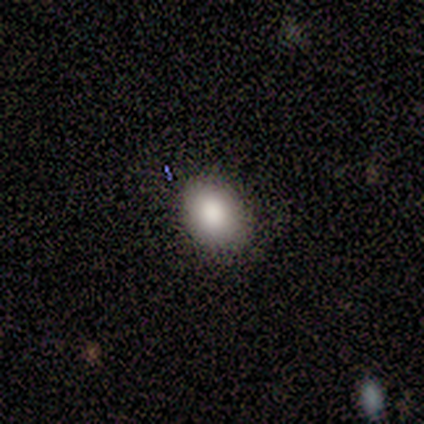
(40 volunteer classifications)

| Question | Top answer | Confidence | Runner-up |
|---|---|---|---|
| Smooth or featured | smooth | 80% | featured or disk (12%) |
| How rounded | in between | 53% | round (47%) |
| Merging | none | 89% | minor disturbance (11%) |